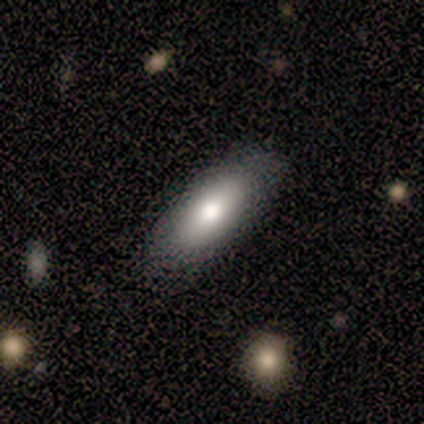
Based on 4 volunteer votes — A smooth galaxy with no disk features (100%) that is in between round and cigar-shaped (75%). Merging: none (100%).